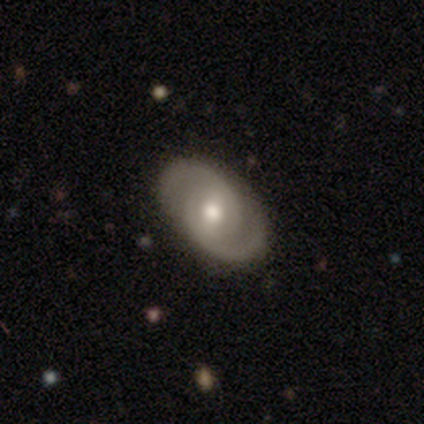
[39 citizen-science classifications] Smooth or featured: featured or disk — 82% (smooth — 15%)
Edge-on disk: no — 100%
Bar: weak — 62% (no — 28%)
Spiral arms: yes — 94% (no — 6%)
Spiral winding: tight — 47% (medium — 30%)
Spiral arm count: 2 — 93% (3 — 3%)
Bulge size: moderate — 78% (small — 19%)
Merging: none — 95% (minor disturbance — 3%)